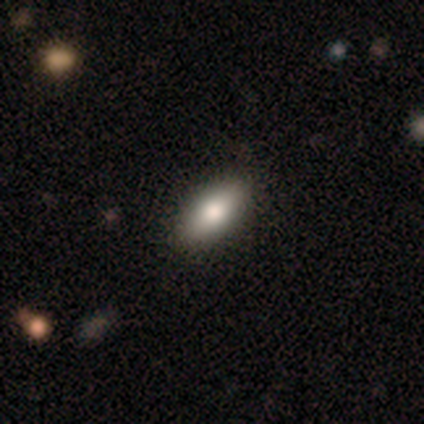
Smooth or featured? 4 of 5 (80%) said smooth. How rounded? 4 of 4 (100%) said in between. Merging? 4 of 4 (100%) said none.